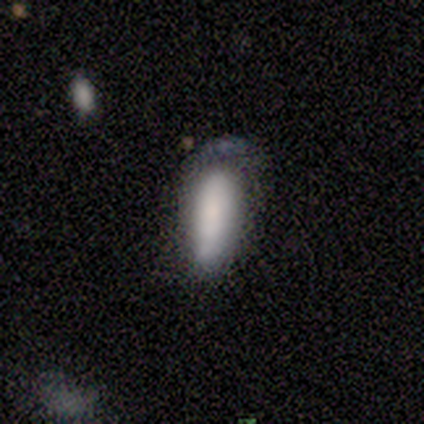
smooth-or-featured: smooth: 67% | featured or disk: 25% | star or artifact: 8%
  how-rounded: in between: 50% (tied) | cigar-shaped: 50% (tied) | round: 0%
  merging: none: 36% (tied) | minor disturbance: 36% (tied) | major disturbance: 27% | merger: 0%